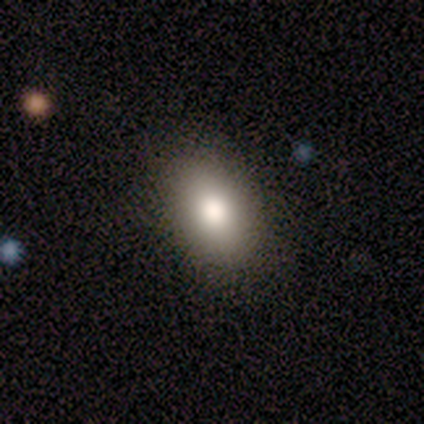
This appears to be a smooth galaxy with no disk features (100%) that is in between round and cigar-shaped (100%). Merging: none (100%).